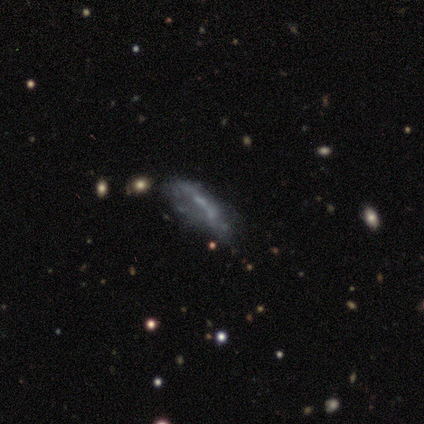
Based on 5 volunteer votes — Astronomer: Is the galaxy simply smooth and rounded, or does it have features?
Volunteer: smooth — 60% (runner-up: featured or disk, 40%).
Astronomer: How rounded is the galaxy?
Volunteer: cigar-shaped — 67%.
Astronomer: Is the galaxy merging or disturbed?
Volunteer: none — 40%, tied with major disturbance at 40%.